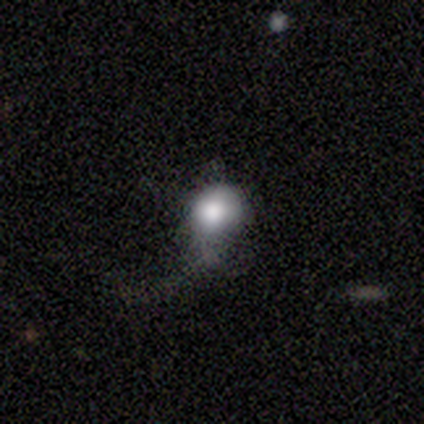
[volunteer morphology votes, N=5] This is clearly a smooth galaxy (80%). How rounded: likely in between (75%). Merging: marginally minor disturbance (40%, tied with major disturbance).